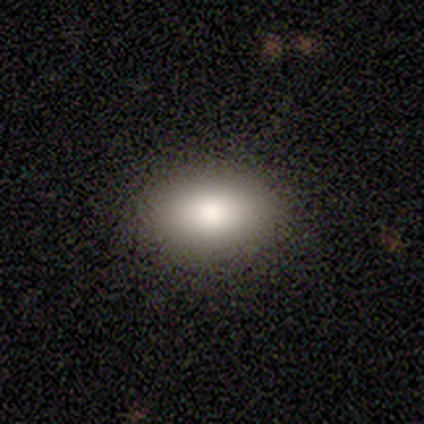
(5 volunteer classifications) Smooth or featured? smooth (60%)
How rounded? in between (100%)
Merging? none (100%)